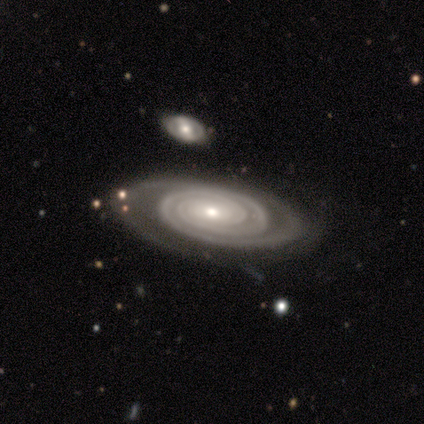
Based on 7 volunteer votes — smooth-or-featured: featured or disk: 100% | smooth: 0% | star or artifact: 0%
  disk-edge-on: no: 100% | yes: 0%
    bar: weak: 57% | no: 43% | strong: 0%
    has-spiral-arms: yes: 100% | no: 0%
      spiral-winding: tight: 100% | medium: 0% | loose: 0%
      spiral-arm-count: 2: 86% | can't tell: 14% | 1: 0% | 3: 0% | 4: 0% | more than 4: 0%
    bulge-size: small: 57% | moderate: 43% | dominant: 0% | large: 0% | none: 0%
  merging: none: 86% | minor disturbance: 14% | major disturbance: 0% | merger: 0%